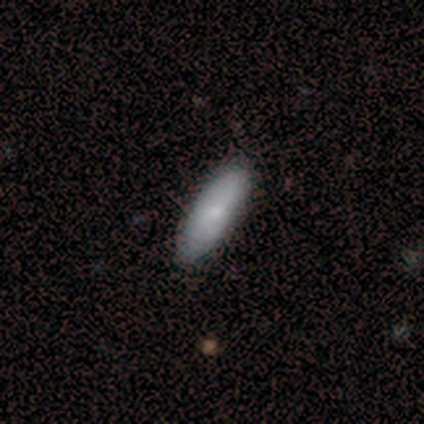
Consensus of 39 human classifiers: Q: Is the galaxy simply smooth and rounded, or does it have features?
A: smooth — 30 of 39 (77%).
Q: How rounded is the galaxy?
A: in between — 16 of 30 (53%).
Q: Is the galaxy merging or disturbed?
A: none — 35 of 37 (95%).